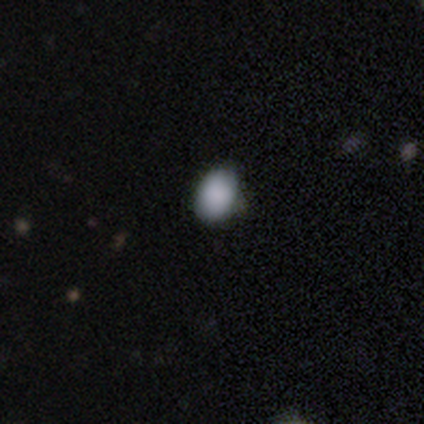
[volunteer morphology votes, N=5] smooth_or_featured: smooth (p=0.60) [alt: star or artifact p=0.40]
how_rounded: in between (p=0.67) [alt: round p=0.33]
merging: none (p=1.00)